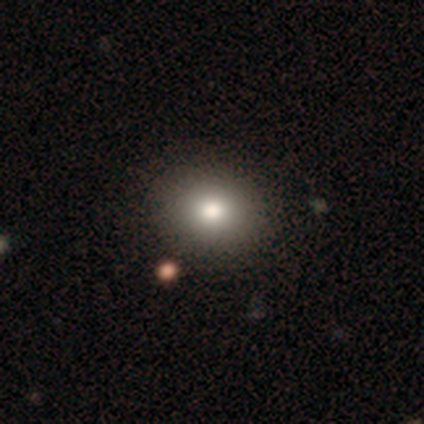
Overall: smooth (85%). How rounded: round (50%, tied with in between). Merging: none (55%).